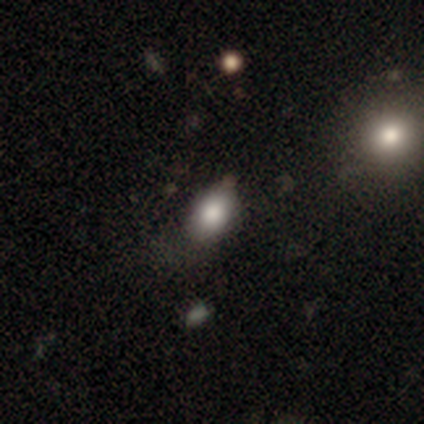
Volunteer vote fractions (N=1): This appears to be a featured or disk galaxy (100%) with no bar (100%), no spiral arms (100%) and a large central bulge (100%). Merging: none (100%).